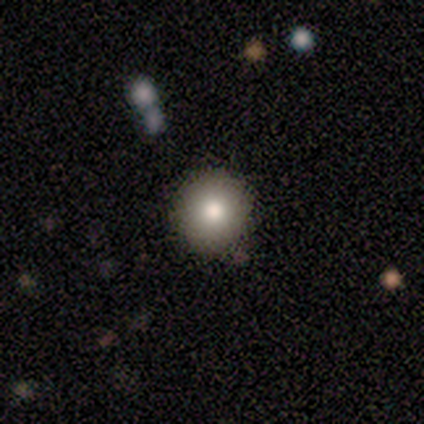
Q: Smooth or featured?
A: smooth (60%); runner-up: featured or disk (20%)
Q: How rounded?
A: round (100%)
Q: Merging?
A: none (75%); runner-up: minor disturbance (25%)